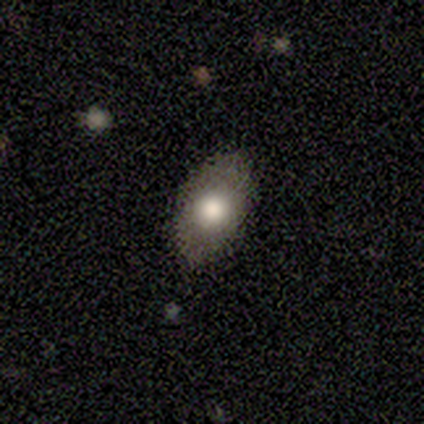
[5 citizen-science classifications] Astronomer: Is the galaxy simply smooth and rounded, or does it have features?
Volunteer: smooth — 80%.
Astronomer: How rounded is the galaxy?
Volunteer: in between — 100%.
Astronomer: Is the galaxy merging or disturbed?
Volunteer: none — 100%.